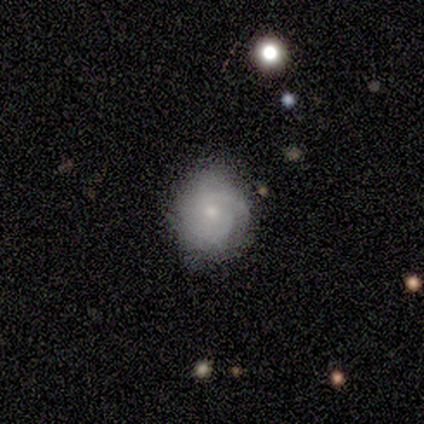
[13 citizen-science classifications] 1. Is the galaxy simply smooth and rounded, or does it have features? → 85% featured or disk, 8% smooth, 8% star or artifact.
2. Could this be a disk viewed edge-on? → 100% no, 0% yes.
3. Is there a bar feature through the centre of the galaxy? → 91% no, 9% weak, 0% strong.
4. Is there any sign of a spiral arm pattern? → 100% yes, 0% no.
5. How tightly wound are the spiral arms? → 73% tight, 18% medium, 9% loose.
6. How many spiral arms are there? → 45% 2, 36% can't tell, 18% 3, 0% 1, 0% 4, 0% more than 4.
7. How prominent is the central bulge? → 73% small, 18% moderate, 9% none, 0% dominant, 0% large.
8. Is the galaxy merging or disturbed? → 92% none, 8% minor disturbance, 0% major disturbance, 0% merger.